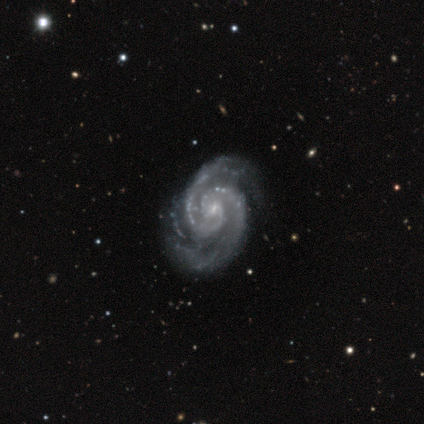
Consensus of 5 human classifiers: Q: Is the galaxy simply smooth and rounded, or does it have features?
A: featured or disk — 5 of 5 (100%).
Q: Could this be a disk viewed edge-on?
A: no — 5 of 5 (100%).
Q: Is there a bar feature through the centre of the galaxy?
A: no — 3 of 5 (60%).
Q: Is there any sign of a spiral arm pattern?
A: yes — 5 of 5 (100%).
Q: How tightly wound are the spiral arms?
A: tight — 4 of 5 (80%).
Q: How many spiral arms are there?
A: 2 — 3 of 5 (60%).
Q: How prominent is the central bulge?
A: small — 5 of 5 (100%).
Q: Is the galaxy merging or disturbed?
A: none — 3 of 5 (60%).